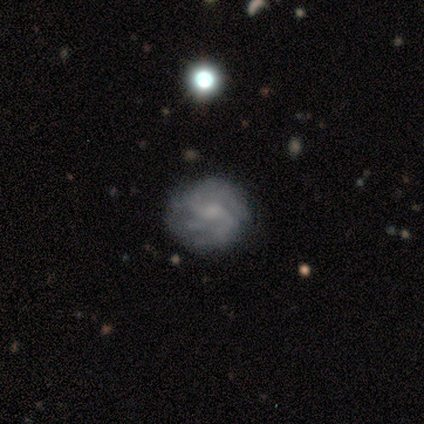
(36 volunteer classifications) Overall: featured or disk (64%). Edge-on disk: no (100%). Bar: no (65%; weak 30%). Spiral arms: yes (83%). Spiral arm count: 2 (58%; 4 21%). Spiral winding: medium (47%; tight 32%). Bulge size: small (35%; none 30%). Merging: none (74%).